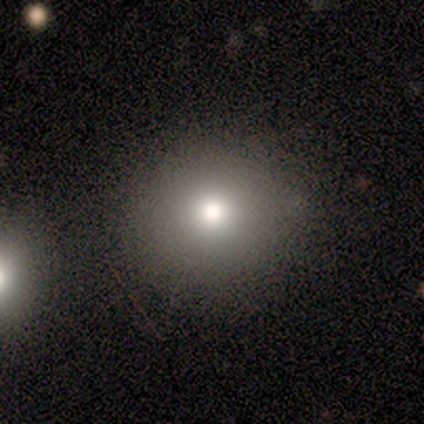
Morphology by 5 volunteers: This appears to be a smooth galaxy with no disk features (80%) that is round (75%). Merging: none (80%).